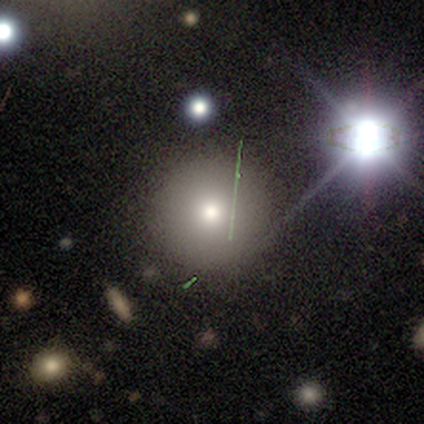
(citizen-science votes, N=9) Smooth or featured? 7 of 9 (78%) said smooth. How rounded? 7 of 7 (100%) said round. Merging? 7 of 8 (88%) said none.